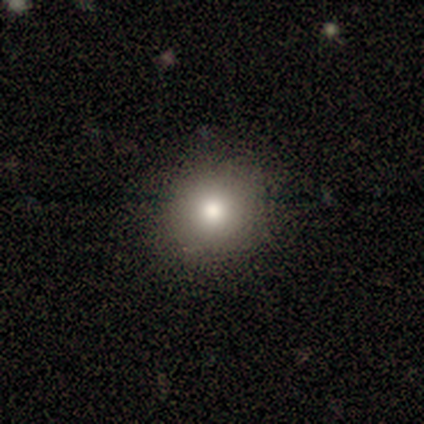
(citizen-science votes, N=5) Morphology: type=smooth (60%); roundness=round (100%); merging=none (75%).